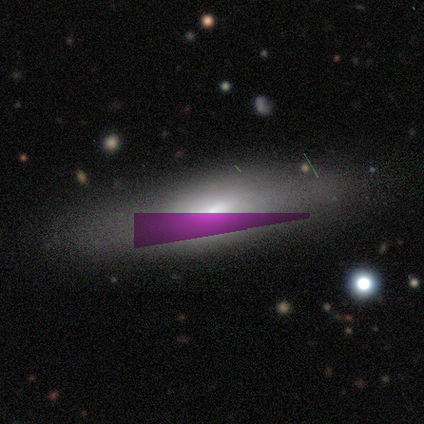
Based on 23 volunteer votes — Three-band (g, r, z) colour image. It shows a smooth galaxy with no disk features (65%) that is in between round and cigar-shaped (67%). Merging: none (65%).